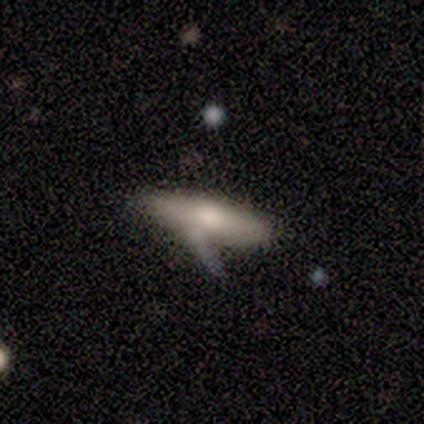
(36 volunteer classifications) A smooth galaxy with no disk features (58%) that is cigar-shaped (67%). Merging: none (31%).